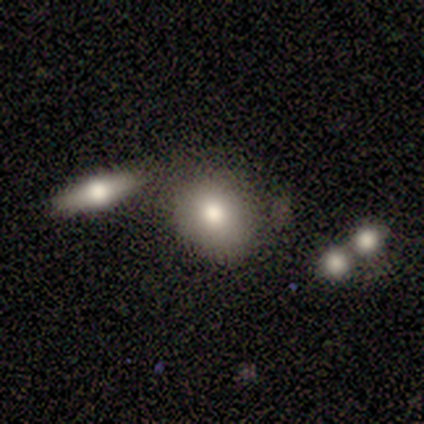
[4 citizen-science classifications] Morphology: type=smooth (100%); roundness=in between (75%); merging=none (50%).